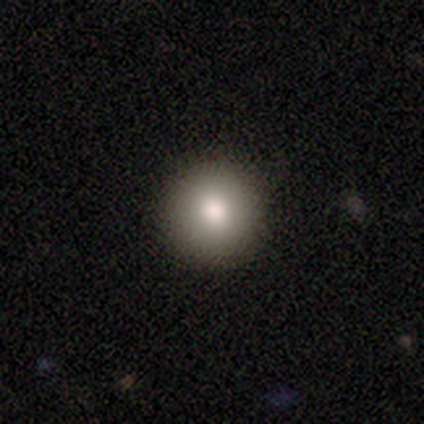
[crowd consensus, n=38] Volunteers were most divided on "smooth or featured": smooth: 82%, featured or disk: 18%, star or artifact: 0%. More confident: how rounded — round (100%); merging — none (76%).